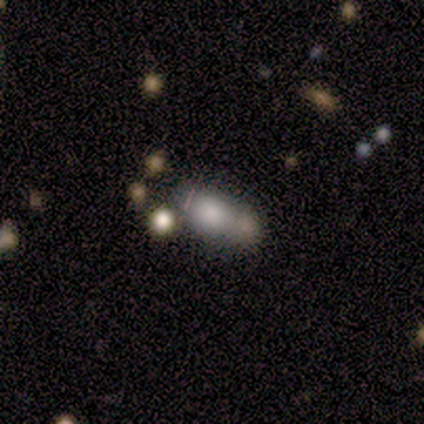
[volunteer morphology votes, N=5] A smooth galaxy with no disk features (80%) that is in between round and cigar-shaped (75%).

Vote fractions:
- Smooth or featured? smooth: 80% / featured or disk: 20% / star or artifact: 0%
- How rounded? in between: 75% / round: 25% / cigar-shaped: 0%
- Merging? merger: 60% / major disturbance: 40% / none: 0% / minor disturbance: 0%